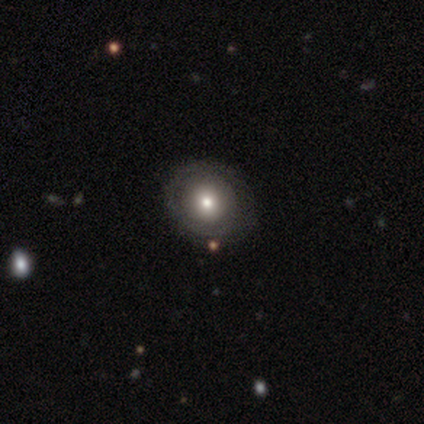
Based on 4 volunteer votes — smooth_or_featured: smooth (p=0.50) [alt: featured or disk p=0.25]
how_rounded: round (p=1.00)
merging: none (p=0.67) [alt: minor disturbance p=0.33]